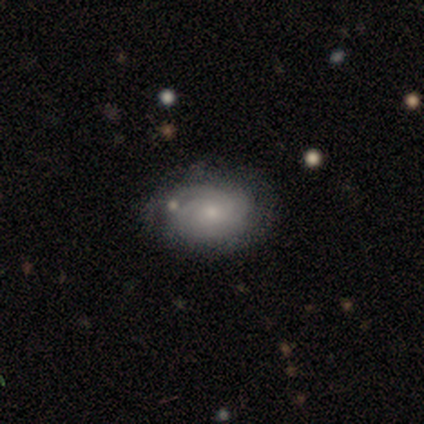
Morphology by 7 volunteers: This is clearly a featured or disk galaxy (86%). It is clearly not viewed edge-on (100%). Bar: clearly no (100%). Spiral arm pattern: clearly yes (100%). Spiral arm count: likely can't tell (67%). Spiral winding: clearly tight (100%). Central bulge: clearly small (100%). Merging: clearly none (86%).